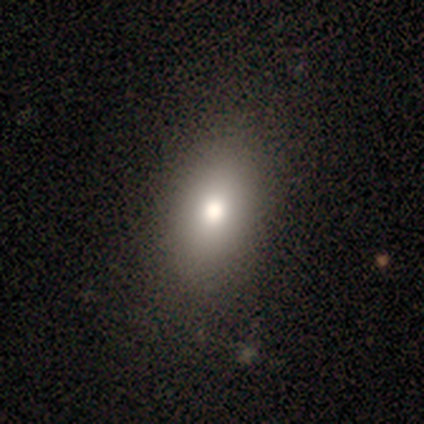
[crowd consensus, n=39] A smooth galaxy with no disk features (79%) that is in between round and cigar-shaped (94%). Merging: none (64%).